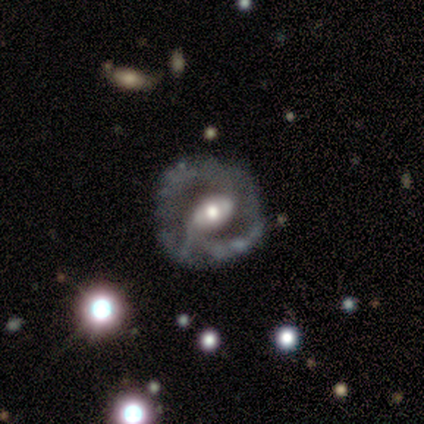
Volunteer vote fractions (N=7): This is clearly a featured or disk galaxy (100%). It is clearly not viewed edge-on (86%). Bar: likely weak (67%). Spiral arm pattern: clearly yes (83%). Spiral arm count: clearly 2 (80%). Spiral winding: likely tight (60%). Central bulge: possibly moderate (50%). Merging: possibly none (57%).